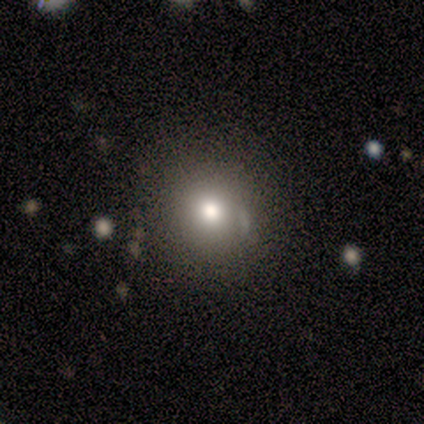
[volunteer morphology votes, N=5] This appears to be a smooth galaxy with no disk features (80%) that is round (100%). Merging: none (100%).